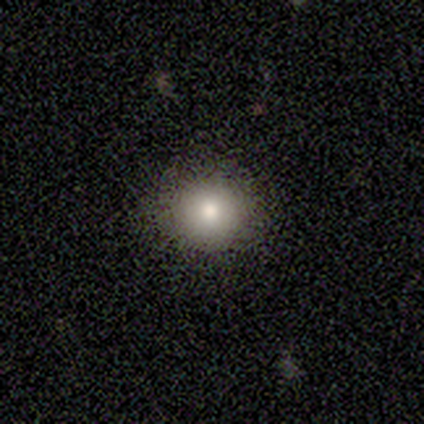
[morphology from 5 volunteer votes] A star or artifact, not a galaxy (60%).

Vote fractions:
- Smooth or featured? star or artifact: 60% / smooth: 40% / featured or disk: 0%